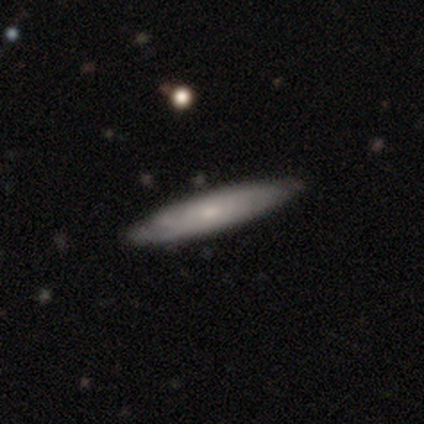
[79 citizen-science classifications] A featured or disk galaxy (56%) with no bar (92%), tight (67%) spiral arms (84%) and a small central bulge (76%). Merging: none (43%).